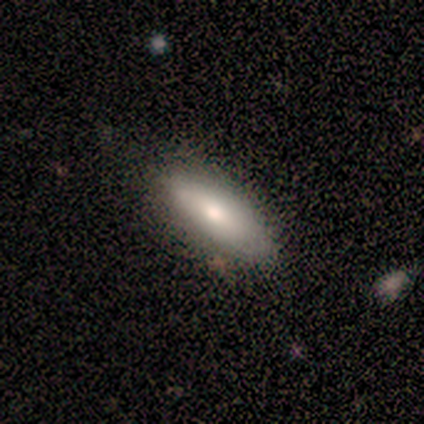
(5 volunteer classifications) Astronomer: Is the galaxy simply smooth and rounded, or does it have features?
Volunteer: smooth — 40%, tied with featured or disk at 40%.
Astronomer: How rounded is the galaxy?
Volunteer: in between — 50%, tied with cigar-shaped at 50%.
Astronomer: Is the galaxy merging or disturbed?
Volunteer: none — 75%.